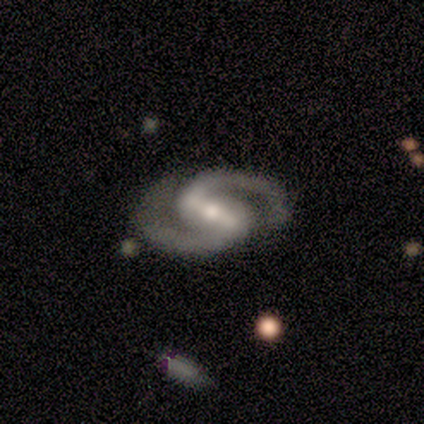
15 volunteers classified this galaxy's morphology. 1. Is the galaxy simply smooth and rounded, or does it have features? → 93% featured or disk, 7% star or artifact, 0% smooth.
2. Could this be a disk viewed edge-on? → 100% no, 0% yes.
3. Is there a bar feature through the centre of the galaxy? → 79% strong, 21% weak, 0% no.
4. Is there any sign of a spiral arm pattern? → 100% yes, 0% no.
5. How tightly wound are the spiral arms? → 71% medium, 21% tight, 7% loose.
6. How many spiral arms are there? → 93% 2, 7% can't tell, 0% 1, 0% 3, 0% 4, 0% more than 4.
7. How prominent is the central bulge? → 57% moderate, 36% small, 7% large, 0% dominant, 0% none.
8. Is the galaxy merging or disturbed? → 93% none, 7% minor disturbance, 0% major disturbance, 0% merger.